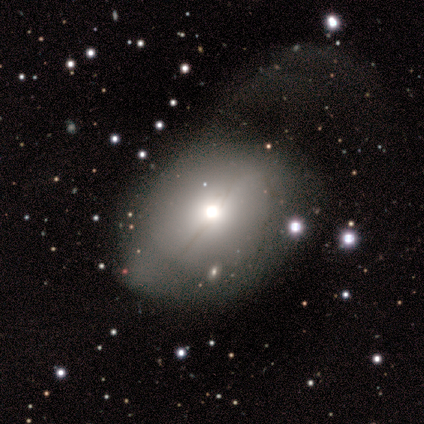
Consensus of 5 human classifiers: smooth-or-featured: smooth: 40% (tied) | featured or disk: 40% (tied) | star or artifact: 20%
  how-rounded: in between: 100% | round: 0% | cigar-shaped: 0%
  merging: major disturbance: 75% | none: 25% | minor disturbance: 0% | merger: 0%